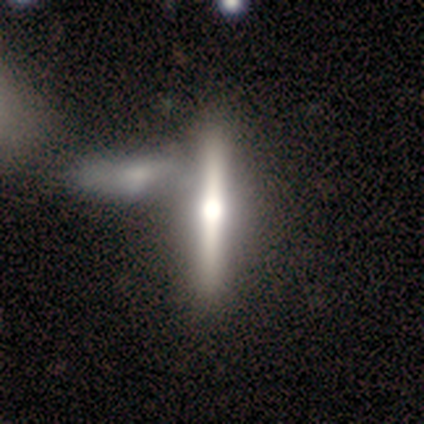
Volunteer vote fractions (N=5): Overall: featured or disk (100%). Edge-on disk: yes (100%). Edge-on bulge: rounded (80%). Merging: none (60%; major disturbance 20%).